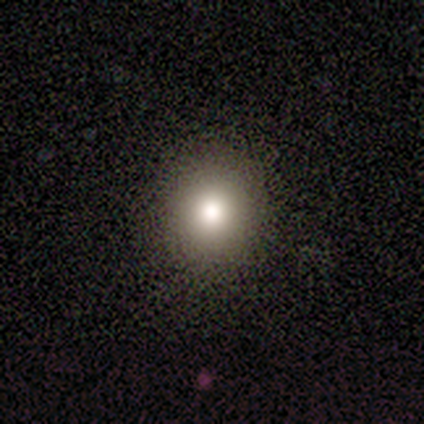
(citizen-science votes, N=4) Volunteers were most divided on "smooth or featured": smooth: 75%, featured or disk: 25%, star or artifact: 0%. More confident: how rounded — round (100%); merging — none (100%).